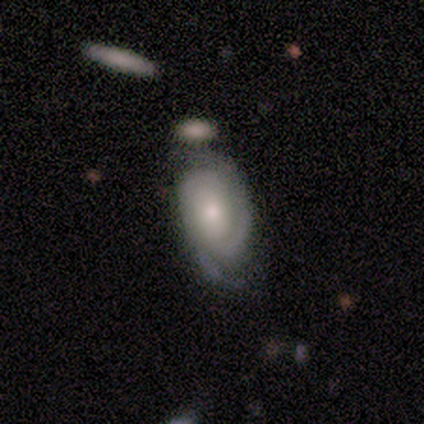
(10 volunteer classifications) smooth-or-featured: featured or disk: 90% | star or artifact: 10% | smooth: 0%
  disk-edge-on: no: 100% | yes: 0%
    bar: no: 67% | weak: 22% | strong: 11%
    has-spiral-arms: yes: 100% | no: 0%
      spiral-winding: tight: 78% | medium: 11% | loose: 11%
      spiral-arm-count: 2: 89% | can't tell: 11% | 1: 0% | 3: 0% | 4: 0% | more than 4: 0%
    bulge-size: moderate: 78% | large: 11% | small: 11% | dominant: 0% | none: 0%
  merging: none: 67% | minor disturbance: 11% | major disturbance: 11% | merger: 11%